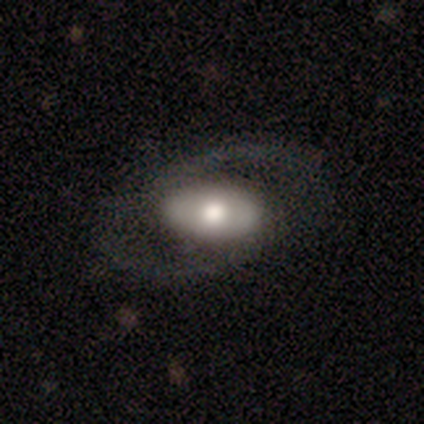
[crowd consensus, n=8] Smooth or featured? 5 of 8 (62%) said featured or disk. Edge-on disk? 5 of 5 (100%) said no. Bar? 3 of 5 (60%) said strong. Spiral arms? 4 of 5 (80%) said yes. Spiral winding? 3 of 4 (75%) said medium. Spiral arm count? 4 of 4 (100%) said 2. Bulge size? 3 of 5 (60%) said large. Merging? 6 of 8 (75%) said none.